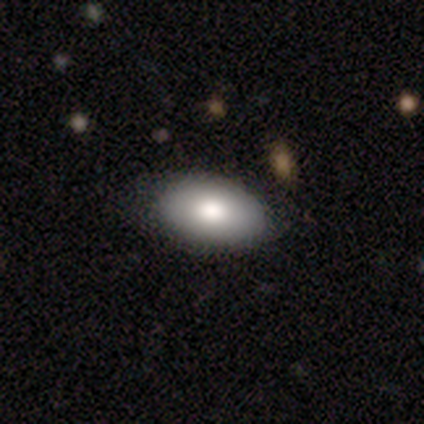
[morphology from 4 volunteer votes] type=smooth (100%); roundness=in between (100%); merging=none (75%).